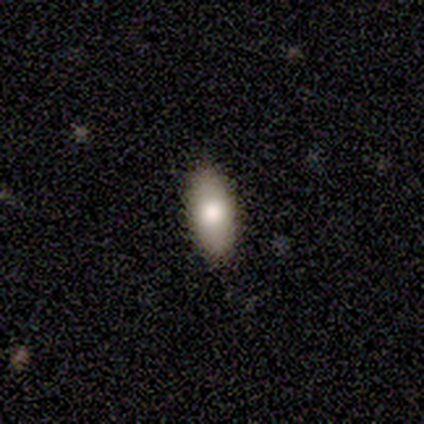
Morphology: type=smooth (100%); roundness=in between (100%); merging=none (80%).